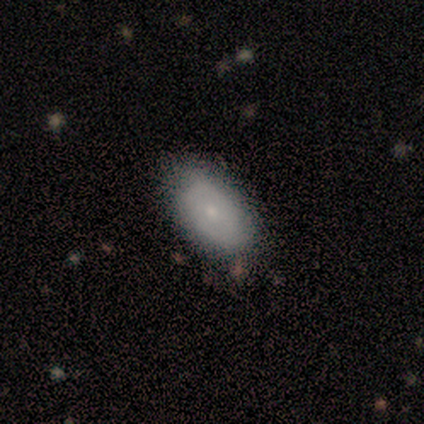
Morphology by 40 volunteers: Q: Smooth or featured?
A: smooth (65%); runner-up: featured or disk (32%)
Q: How rounded?
A: in between (96%); runner-up: round (4%)
Q: Merging?
A: none (79%); runner-up: minor disturbance (21%)